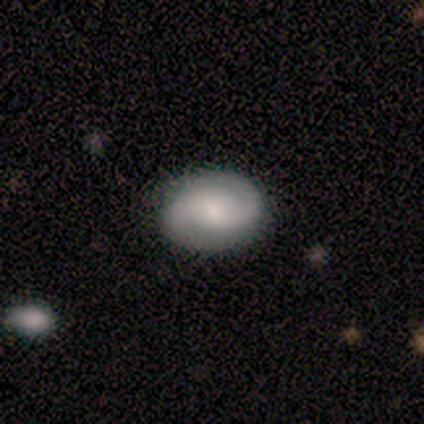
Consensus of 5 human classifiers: smooth_or_featured: smooth (p=0.60) [alt: featured or disk p=0.40]
how_rounded: in between (p=0.67) [alt: round p=0.33]
merging: none (p=1.00)